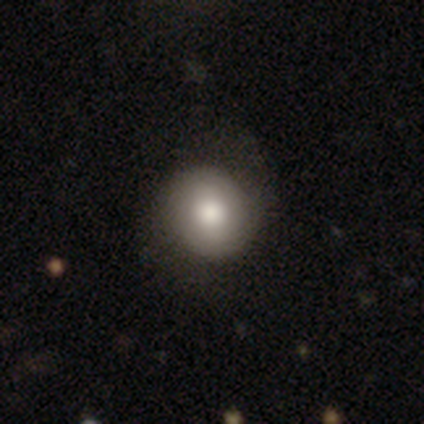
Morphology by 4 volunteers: type=smooth (75%); roundness=round (100%); merging=none (100%).